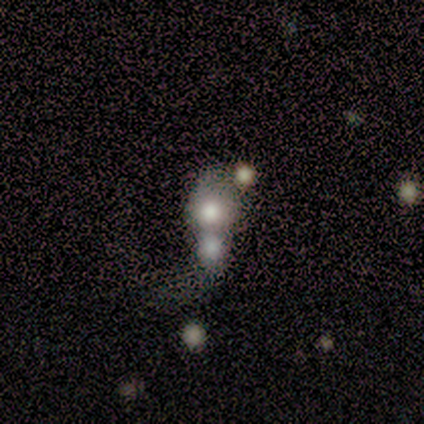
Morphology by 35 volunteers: Smooth or featured? smooth (63%)
How rounded? round (73%)
Merging? merger (71%)